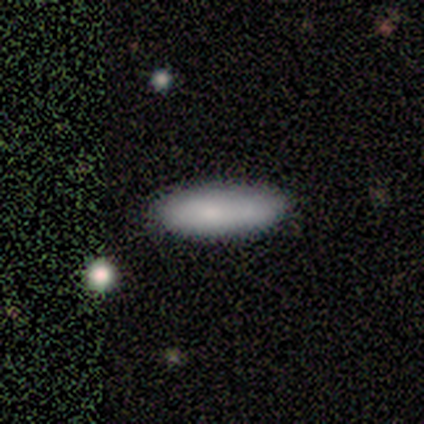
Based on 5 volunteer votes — smooth_or_featured: smooth (p=1.00)
how_rounded: in between (p=0.80) [alt: cigar-shaped p=0.20]
merging: none (p=0.60) [alt: minor disturbance p=0.40]